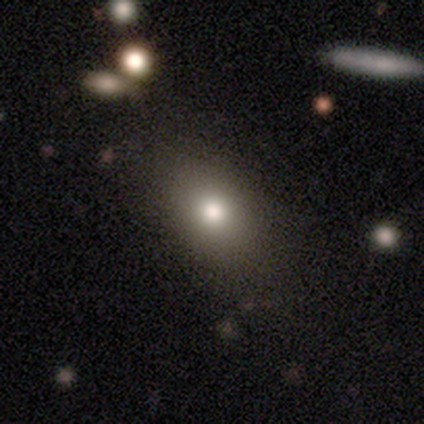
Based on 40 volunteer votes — A smooth galaxy with no disk features (82%) that is in between round and cigar-shaped (88%). Merging: none (43%).